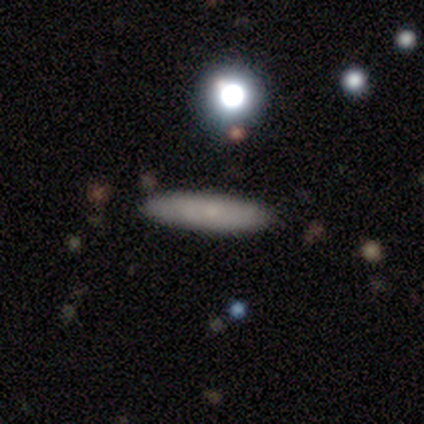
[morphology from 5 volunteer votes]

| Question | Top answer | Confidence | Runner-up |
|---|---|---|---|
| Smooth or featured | featured or disk | 60% | smooth (20%) |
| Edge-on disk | yes | 67% | no (33%) |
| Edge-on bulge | none | 50% | tied: rounded (50%) |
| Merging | none | 100% | — |